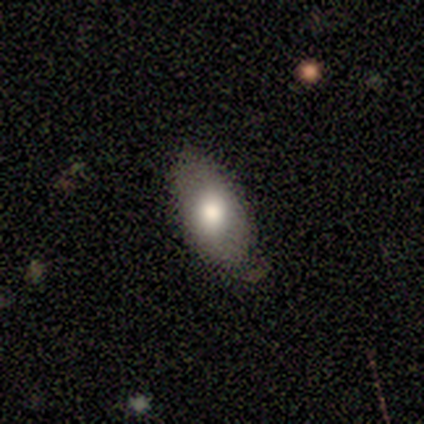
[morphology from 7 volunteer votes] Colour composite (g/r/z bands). It shows a smooth galaxy with no disk features (86%) that is in between round and cigar-shaped (100%). Merging: none (71%).